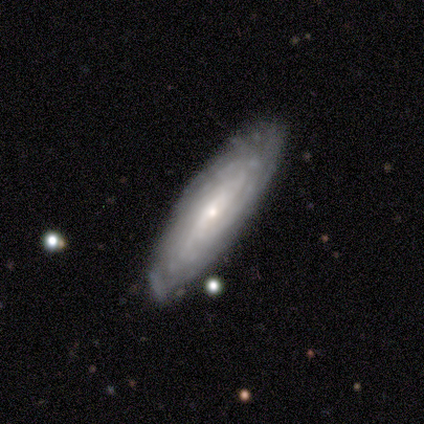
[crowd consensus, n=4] A featured or disk galaxy (100%) with a weak bar (50%, tied with no), more than 4 (50%, tied with can't tell) tight (50%, tied with medium) spiral arms (100%) and a small central bulge (100%). Merging: none (75%).